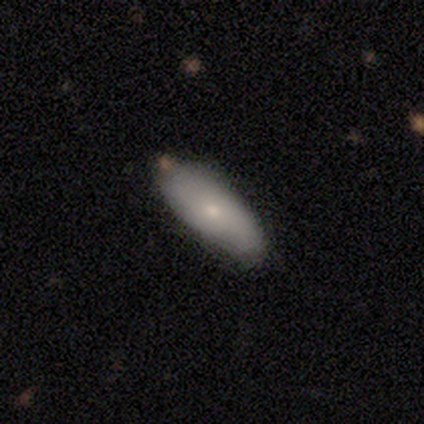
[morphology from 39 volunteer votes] A smooth galaxy with no disk features (77%) that is in between round and cigar-shaped (80%).

Vote fractions:
- Smooth or featured? smooth: 77% / featured or disk: 23% / star or artifact: 0%
- How rounded? in between: 80% / cigar-shaped: 20% / round: 0%
- Merging? none: 59% / minor disturbance: 13% / merger: 5% / major disturbance: 0%